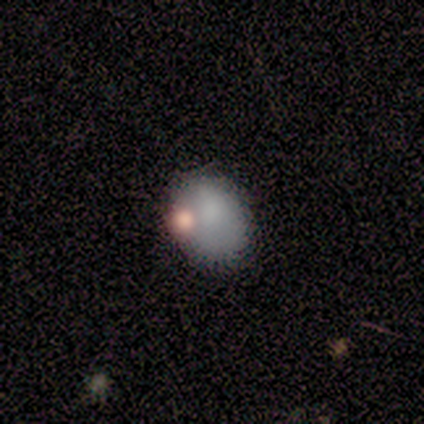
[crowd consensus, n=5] Overall: smooth (60%; featured or disk 40%). How rounded: round (67%; in between 33%). Merging: minor disturbance (40%; none 20%).